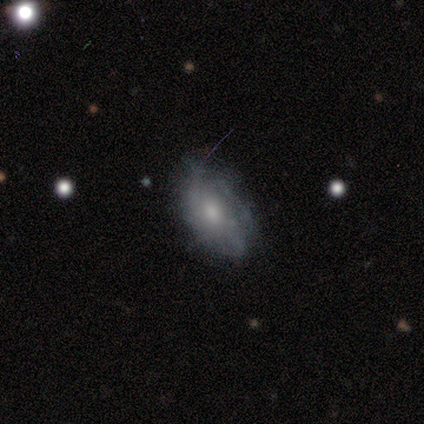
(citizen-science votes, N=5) Volunteers were most divided on "smooth or featured" (2-way tie): smooth: 40%, featured or disk: 40%, star or artifact: 20%; "merging" (2-way tie): none: 50%, minor disturbance: 50%, major disturbance: 0%, merger: 0%. More confident: how rounded — in between (100%).